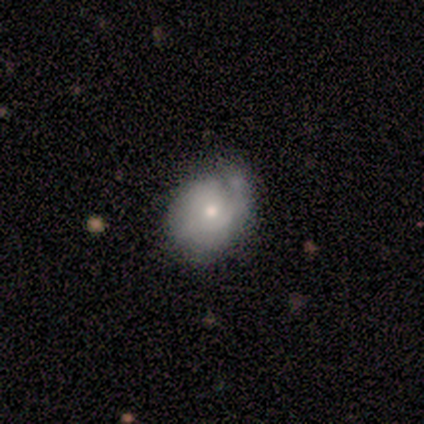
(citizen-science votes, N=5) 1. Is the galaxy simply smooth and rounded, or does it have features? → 80% smooth, 20% star or artifact, 0% featured or disk.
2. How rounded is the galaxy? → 75% round, 25% in between, 0% cigar-shaped.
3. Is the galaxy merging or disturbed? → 75% none, 25% major disturbance, 0% minor disturbance, 0% merger.